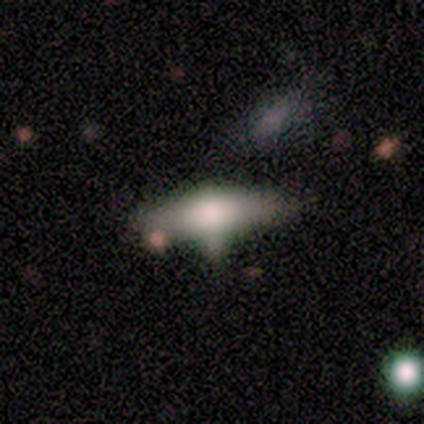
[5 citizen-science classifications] Overall: smooth (40%, tied with featured or disk). How rounded: in between (100%). Merging: none (50%; minor disturbance 25%).